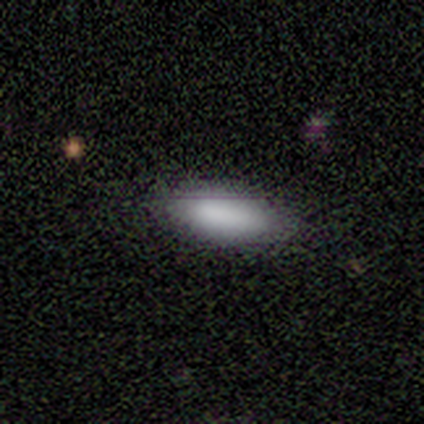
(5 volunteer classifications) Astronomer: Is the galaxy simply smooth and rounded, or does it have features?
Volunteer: smooth — 100%.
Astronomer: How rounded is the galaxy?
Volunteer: in between — 80%.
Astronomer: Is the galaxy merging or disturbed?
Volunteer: none — 80%.